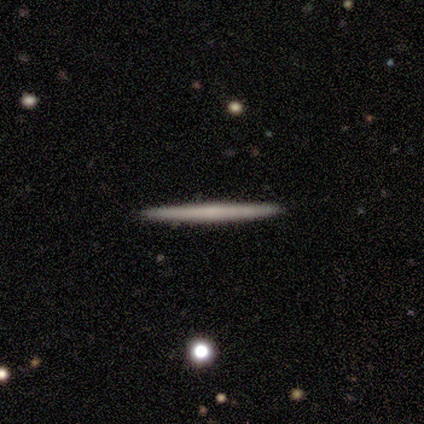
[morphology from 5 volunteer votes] Overall: smooth (60%; featured or disk 40%). How rounded: cigar-shaped (100%). Merging: none (100%).